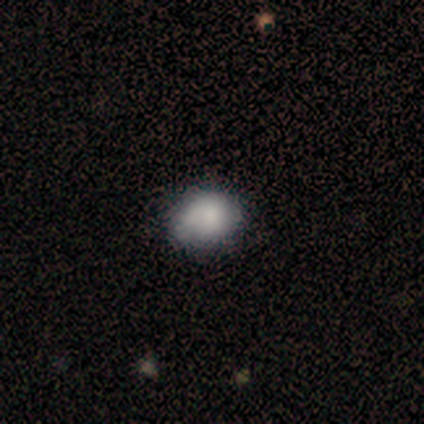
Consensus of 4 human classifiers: This is likely a smooth galaxy (75%). How rounded: likely in between (67%). Merging: possibly none (50%, tied with minor disturbance).